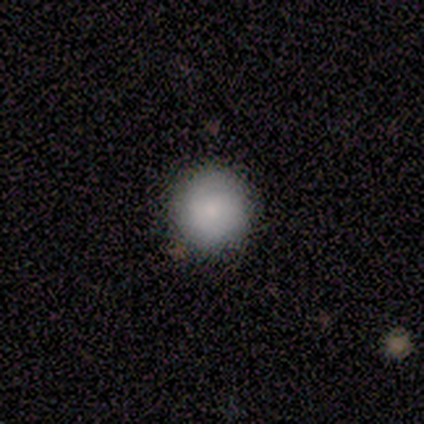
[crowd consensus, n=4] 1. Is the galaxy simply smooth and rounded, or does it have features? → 75% smooth, 25% featured or disk, 0% star or artifact.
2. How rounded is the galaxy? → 100% round, 0% in between, 0% cigar-shaped.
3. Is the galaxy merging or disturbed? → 100% none, 0% minor disturbance, 0% major disturbance, 0% merger.